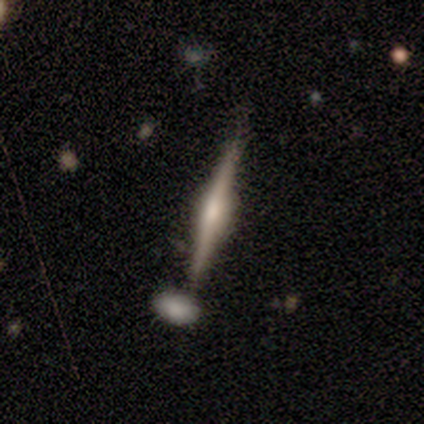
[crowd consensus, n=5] This is clearly a featured or disk galaxy (100%). It is clearly viewed edge-on (100%). Edge-on bulge: clearly rounded (80%). Merging: likely none (60%).